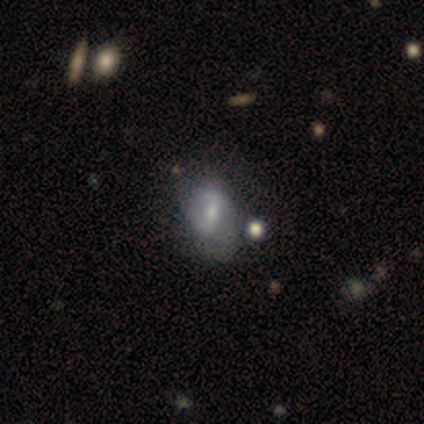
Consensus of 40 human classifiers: Q: Smooth or featured?
A: featured or disk (45%); runner-up: smooth (42%)
Q: Edge-on disk?
A: no (94%); runner-up: yes (6%)
Q: Bar?
A: weak (65%); runner-up: strong (18%)
Q: Spiral arms?
A: no (59%); runner-up: yes (41%)
Q: Bulge size?
A: small (47%); runner-up: moderate (41%)
Q: Merging?
A: none (49%); runner-up: minor disturbance (26%)